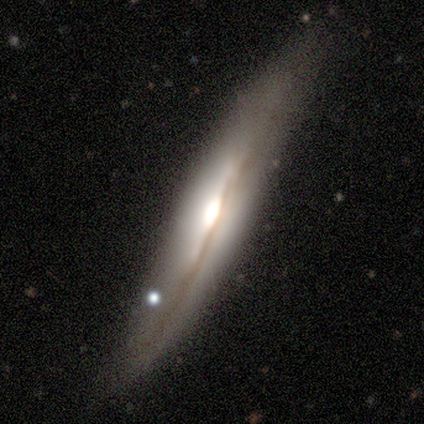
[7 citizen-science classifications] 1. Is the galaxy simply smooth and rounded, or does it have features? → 71% featured or disk, 14% smooth, 14% star or artifact.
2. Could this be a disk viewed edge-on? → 100% yes, 0% no.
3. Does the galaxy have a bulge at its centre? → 100% rounded, 0% boxy, 0% none.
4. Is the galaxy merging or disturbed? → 50% none (tied), 50% minor disturbance (tied), 0% major disturbance, 0% merger.